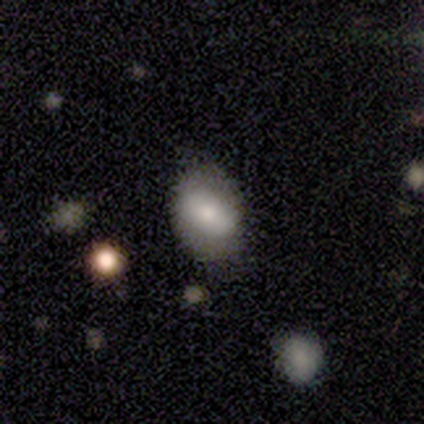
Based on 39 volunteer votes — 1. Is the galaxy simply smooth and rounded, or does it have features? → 72% smooth, 23% featured or disk, 5% star or artifact.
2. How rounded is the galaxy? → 86% in between, 11% round, 4% cigar-shaped.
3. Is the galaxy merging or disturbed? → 73% none, 16% minor disturbance, 5% major disturbance, 5% merger.